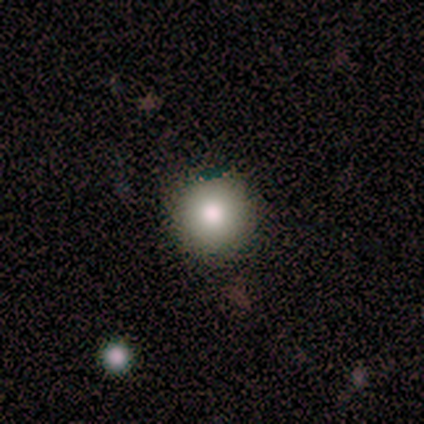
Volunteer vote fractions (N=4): Smooth or featured? smooth (100%)
How rounded? round (100%)
Merging? none (100%)